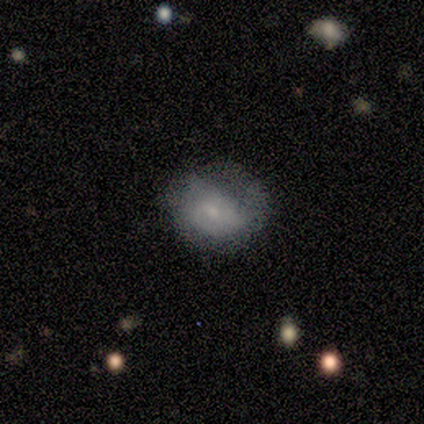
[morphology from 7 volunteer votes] Smooth or featured? smooth (86%)
How rounded? round (67%)
Merging? none (57%)